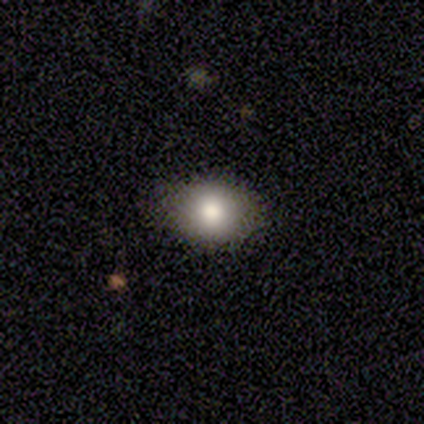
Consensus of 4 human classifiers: A smooth galaxy with no disk features (50%, tied with featured or disk) that is in between round and cigar-shaped (100%).

Vote fractions:
- Smooth or featured? smooth: 50% (tied) / featured or disk: 50% (tied) / star or artifact: 0%
- How rounded? in between: 100% / round: 0% / cigar-shaped: 0%
- Merging? none: 75% / minor disturbance: 25% / major disturbance: 0% / merger: 0%